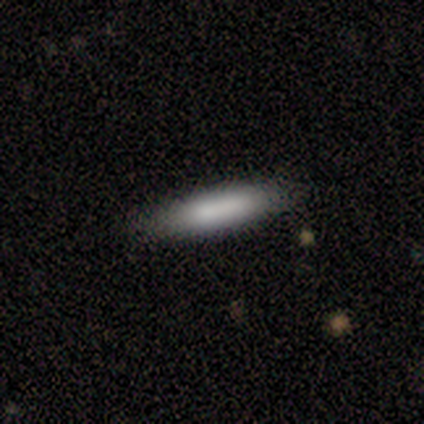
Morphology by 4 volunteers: smooth-or-featured: smooth: 75% | featured or disk: 25% | star or artifact: 0%
  how-rounded: cigar-shaped: 100% | round: 0% | in between: 0%
  merging: none: 50% (tied) | minor disturbance: 50% (tied) | major disturbance: 0% | merger: 0%